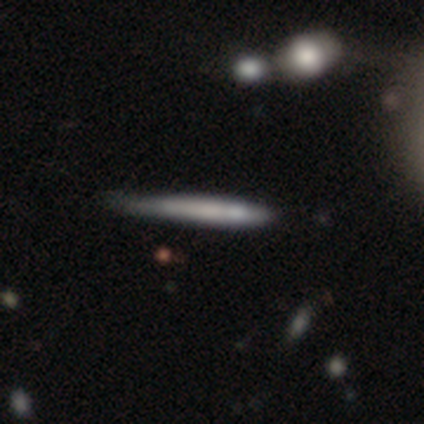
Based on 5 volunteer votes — smooth_or_featured: smooth (p=0.80) [alt: featured or disk p=0.20]
how_rounded: cigar-shaped (p=1.00)
merging: none (p=0.40) [alt: minor disturbance p=0.20]